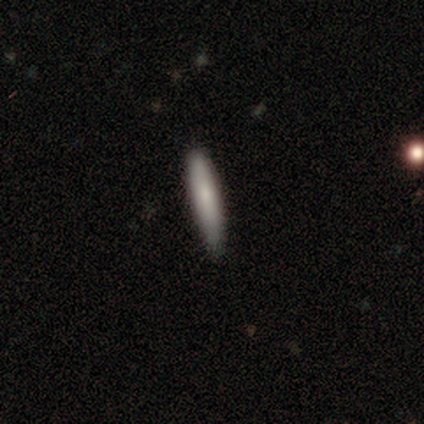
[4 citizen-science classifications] Morphology: type=smooth (75%); roundness=cigar-shaped (67%); merging=minor disturbance (75%).